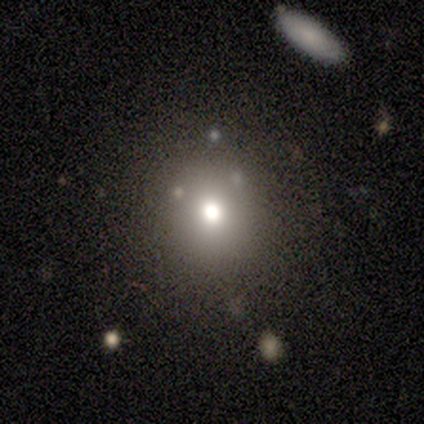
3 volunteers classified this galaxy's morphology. smooth-or-featured: smooth: 100% | featured or disk: 0% | star or artifact: 0%
  how-rounded: round: 67% | in between: 33% | cigar-shaped: 0%
  merging: none: 100% | minor disturbance: 0% | major disturbance: 0% | merger: 0%